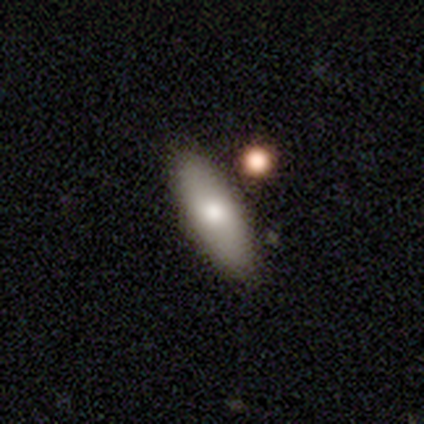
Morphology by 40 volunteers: This is clearly a smooth galaxy (92%). How rounded: possibly in between (57%). Merging: clearly none (89%).